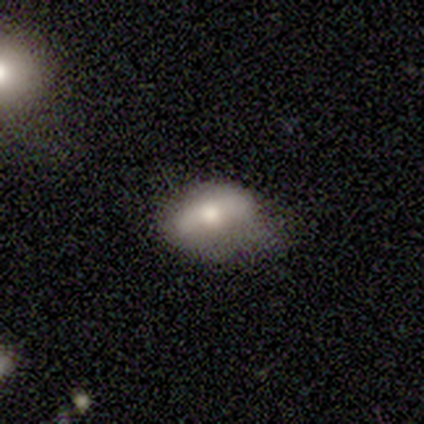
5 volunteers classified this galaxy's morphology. smooth_or_featured: smooth (p=0.60) [alt: featured or disk p=0.20]
how_rounded: in between (p=1.00)
merging: minor disturbance (p=0.50) [alt: none p=0.25]